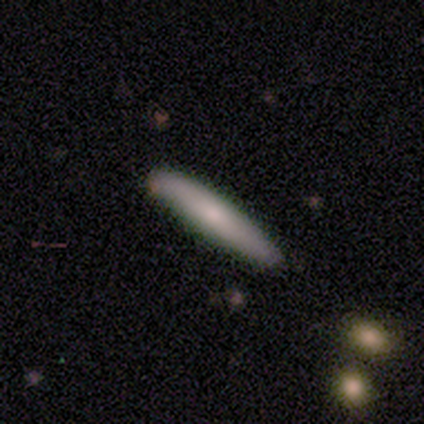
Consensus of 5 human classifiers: smooth_or_featured: smooth (p=0.80) [alt: featured or disk p=0.20]
how_rounded: cigar-shaped (p=1.00)
merging: none (p=1.00)